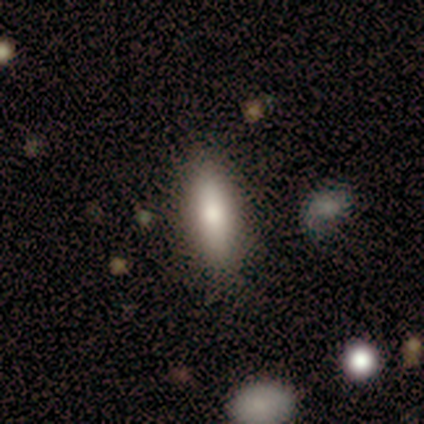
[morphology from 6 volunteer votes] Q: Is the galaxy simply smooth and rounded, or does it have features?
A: smooth — 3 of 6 (50%, tied with featured or disk).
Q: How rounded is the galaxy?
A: in between — 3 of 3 (100%).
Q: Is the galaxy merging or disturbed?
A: none — 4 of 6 (67%).